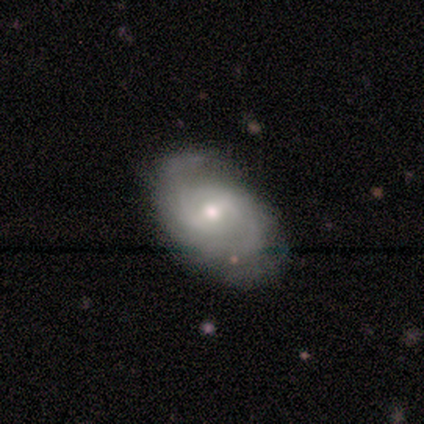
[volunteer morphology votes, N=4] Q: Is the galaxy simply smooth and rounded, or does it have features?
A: featured or disk — 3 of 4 (75%).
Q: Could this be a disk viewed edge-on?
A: no — 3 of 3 (100%).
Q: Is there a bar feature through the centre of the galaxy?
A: weak — 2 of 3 (67%).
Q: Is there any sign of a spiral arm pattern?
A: yes — 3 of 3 (100%).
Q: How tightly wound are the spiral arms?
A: medium — 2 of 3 (67%).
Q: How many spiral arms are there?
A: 2 — 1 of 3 (33%, tied with 3 and can't tell).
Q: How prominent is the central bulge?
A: small — 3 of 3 (100%).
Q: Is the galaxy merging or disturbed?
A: none — 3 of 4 (75%).